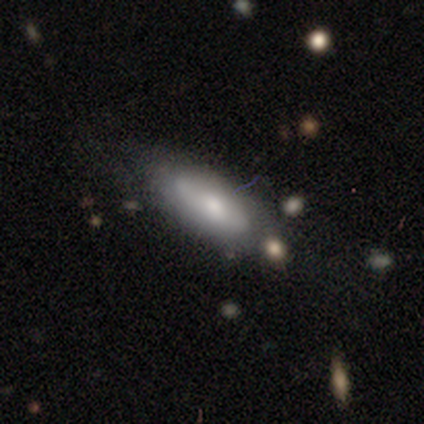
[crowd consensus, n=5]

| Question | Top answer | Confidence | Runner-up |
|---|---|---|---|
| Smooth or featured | smooth | 60% | featured or disk (40%) |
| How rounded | in between | 100% | — |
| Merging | none | 100% | — |